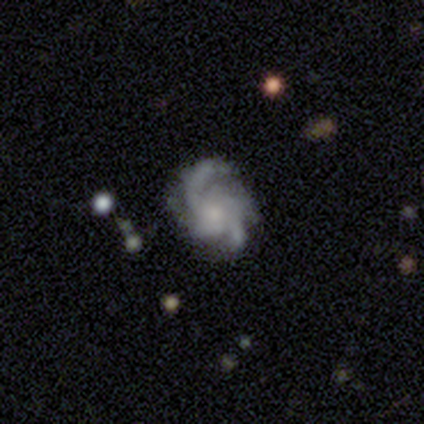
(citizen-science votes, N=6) smooth-or-featured: featured or disk: 100% | smooth: 0% | star or artifact: 0%
  disk-edge-on: no: 100% | yes: 0%
    bar: no: 100% | strong: 0% | weak: 0%
    has-spiral-arms: yes: 100% | no: 0%
      spiral-winding: medium: 50% | tight: 33% | loose: 17%
      spiral-arm-count: can't tell: 50% | 4: 33% | 3: 17% | 1: 0% | 2: 0% | more than 4: 0%
    bulge-size: dominant: 33% (tied) | small: 33% (tied) | moderate: 17% | none: 17% | large: 0%
  merging: none: 83% | minor disturbance: 17% | major disturbance: 0% | merger: 0%